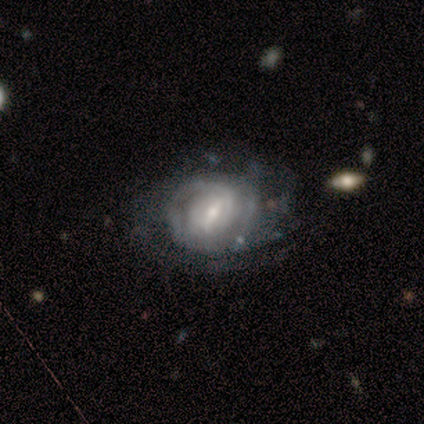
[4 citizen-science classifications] smooth_or_featured: smooth (p=0.50) [tied with: featured or disk p=0.50]
how_rounded: round (p=0.50) [tied with: in between p=0.50]
merging: none (p=0.50) [alt: minor disturbance p=0.25]